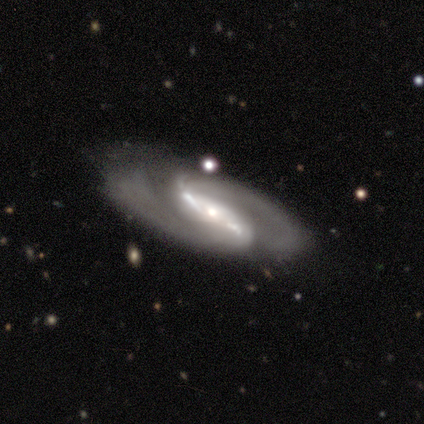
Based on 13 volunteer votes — Volunteers were most divided on "bulge size": small: 42%, moderate: 33%, large: 17%, none: 8%, dominant: 0%. More confident: edge-on disk — no (100%); spiral arms — yes (100%); smooth or featured — featured or disk (92%); bar — strong (83%); spiral arm count — 2 (83%); spiral winding — medium (75%); merging — none (67%).